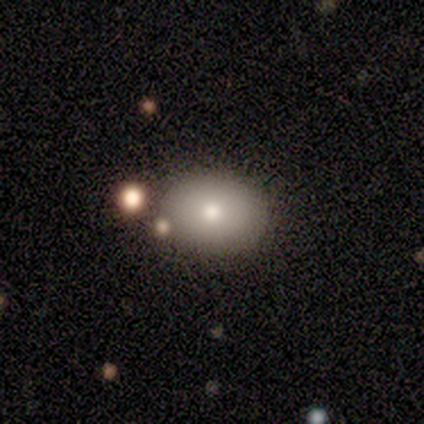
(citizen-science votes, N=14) Smooth or featured? smooth (86%)
How rounded? round (50%, tied with in between)
Merging? none (79%)